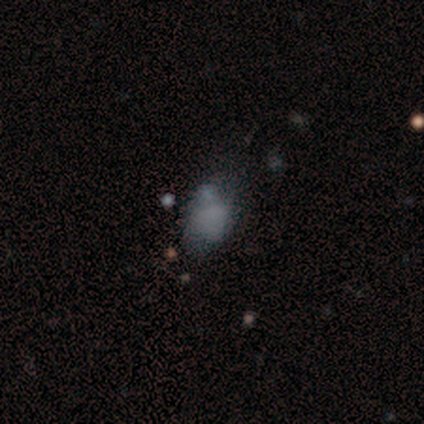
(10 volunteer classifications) smooth-or-featured: smooth: 70% | star or artifact: 20% | featured or disk: 10%
  how-rounded: in between: 57% | round: 43% | cigar-shaped: 0%
  merging: none: 50% | minor disturbance: 38% | major disturbance: 12% | merger: 0%